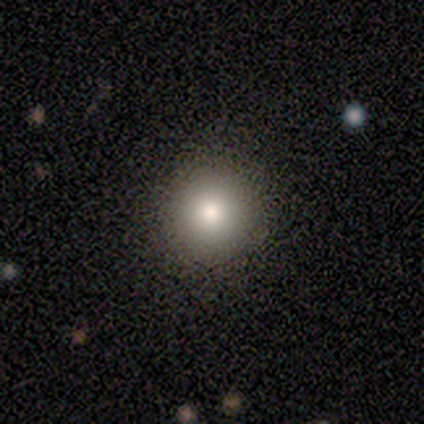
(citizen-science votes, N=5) Morphology: type=smooth (40%, tied with featured or disk); roundness=round (100%); merging=none (100%).